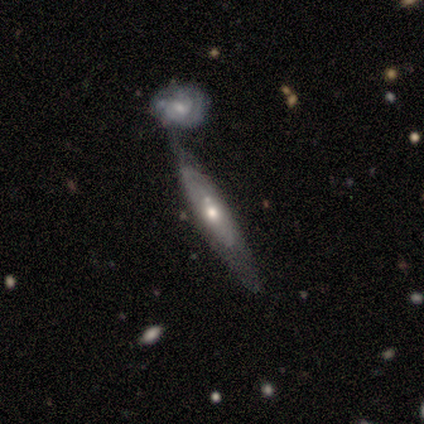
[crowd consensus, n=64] Overall: featured or disk (70%). Edge-on disk: no (60%; yes 40%). Bar: no (89%). Spiral arms: no (56%; yes 44%). Bulge size: moderate (67%). Merging: merger (51%; none 26%).